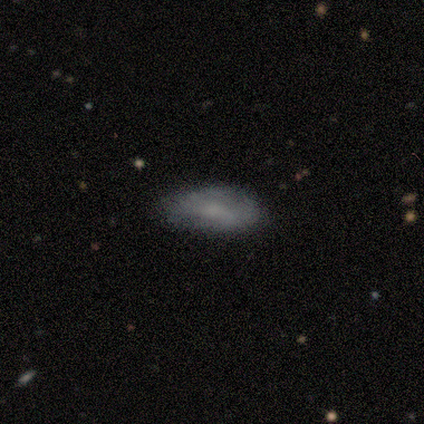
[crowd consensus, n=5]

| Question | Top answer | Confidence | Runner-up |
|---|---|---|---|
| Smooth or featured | smooth | 80% | featured or disk (20%) |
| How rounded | in between | 100% | — |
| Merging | none | 40% | tied: minor disturbance (40%) |